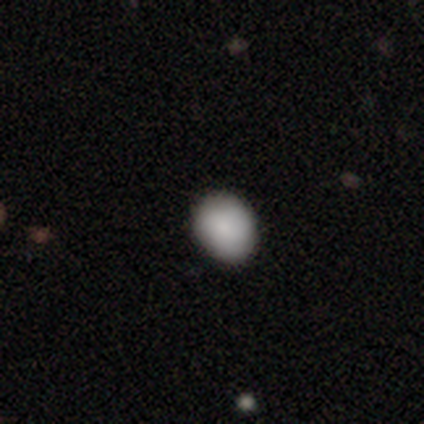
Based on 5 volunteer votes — This is clearly a smooth galaxy (100%). How rounded: likely in between (60%). Merging: likely none (60%).